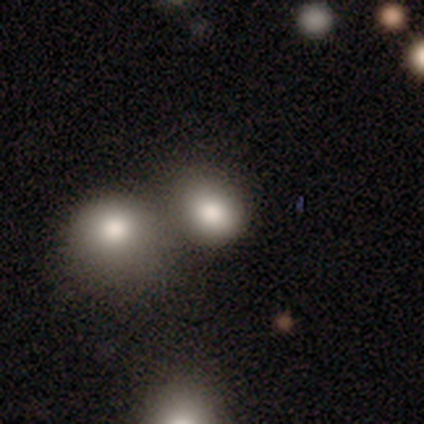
Smooth or featured? 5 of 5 (100%) said smooth. How rounded? 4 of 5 (80%) said round. Merging? 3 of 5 (60%) said none.